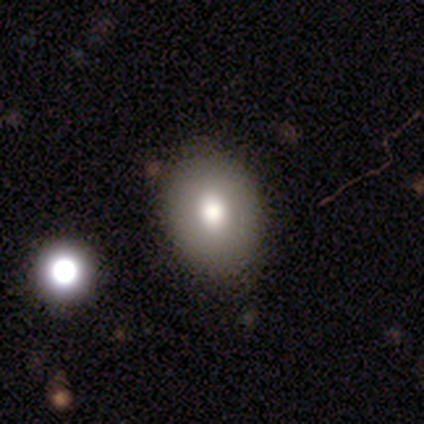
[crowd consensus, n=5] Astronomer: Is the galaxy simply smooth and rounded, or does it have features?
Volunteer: smooth — 80%.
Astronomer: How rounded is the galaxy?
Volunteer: round — 50%, tied with in between at 50%.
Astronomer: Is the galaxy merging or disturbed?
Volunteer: none — 60%.